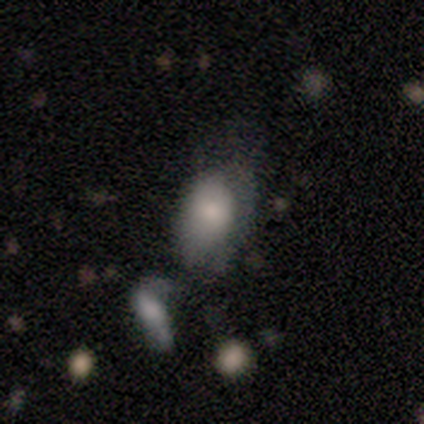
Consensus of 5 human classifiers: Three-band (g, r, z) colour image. It shows a smooth galaxy with no disk features (80%) that is in between round and cigar-shaped (100%). Merging: minor disturbance (40%).